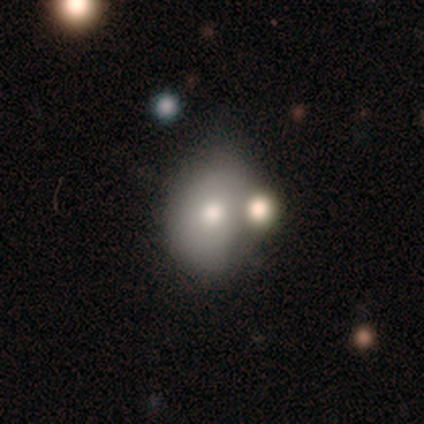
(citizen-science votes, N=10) This is likely a smooth galaxy (60%). How rounded: likely in between (67%). Merging: marginally merger (44%).